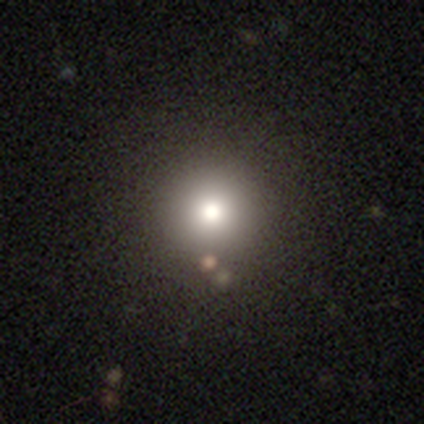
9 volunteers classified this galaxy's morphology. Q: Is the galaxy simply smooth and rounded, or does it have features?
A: smooth — 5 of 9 (56%).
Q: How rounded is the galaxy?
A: round — 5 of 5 (100%).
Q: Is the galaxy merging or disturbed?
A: none — 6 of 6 (100%).